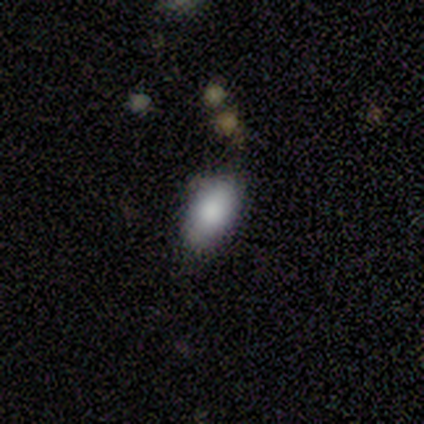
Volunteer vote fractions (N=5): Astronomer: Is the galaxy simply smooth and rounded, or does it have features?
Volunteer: smooth — 80%.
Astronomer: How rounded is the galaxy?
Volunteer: in between — 100%.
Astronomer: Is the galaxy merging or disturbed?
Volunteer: none — 80%.